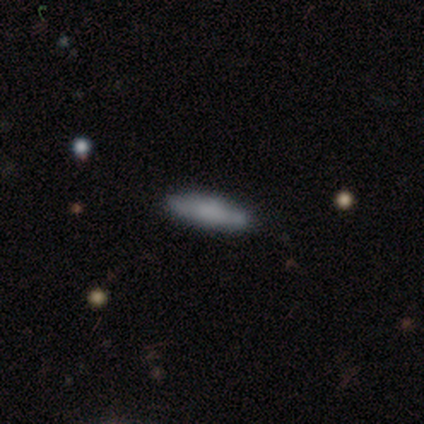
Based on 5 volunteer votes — A smooth galaxy with no disk features (60%) that is cigar-shaped (100%). Merging: none (80%).